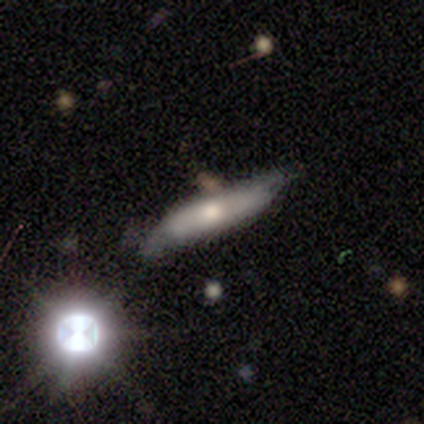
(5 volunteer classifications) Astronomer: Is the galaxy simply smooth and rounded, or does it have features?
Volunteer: featured or disk — 60% (runner-up: smooth, 40%).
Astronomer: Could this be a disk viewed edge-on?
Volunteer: no — 100%.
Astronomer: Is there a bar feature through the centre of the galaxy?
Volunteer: no — 67%.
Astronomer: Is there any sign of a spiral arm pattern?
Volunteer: yes — 67%.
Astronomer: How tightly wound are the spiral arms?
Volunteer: medium — 50%, tied with loose at 50%.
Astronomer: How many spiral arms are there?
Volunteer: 2 — 50%, tied with can't tell at 50%.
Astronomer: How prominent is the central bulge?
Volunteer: moderate — 100%.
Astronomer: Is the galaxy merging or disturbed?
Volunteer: none — 80%.